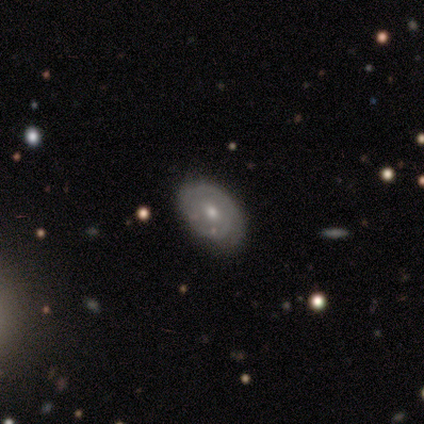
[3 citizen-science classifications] featured or disk 67%, smooth 33%, star or artifact 0%. Down the decision tree: edge-on disk — no (100%); bar — no (100%); spiral arms — yes (50%, tied with no); spiral arm count — 1 (100%); spiral winding — loose (100%); bulge size — moderate (100%); merging — none (67%).